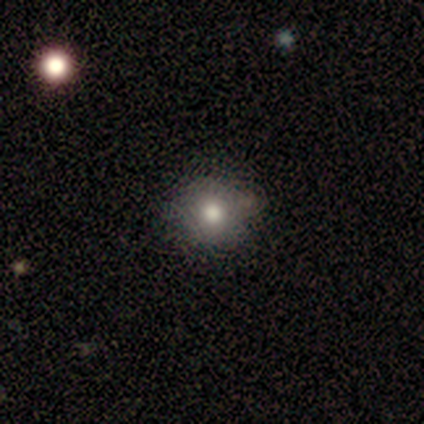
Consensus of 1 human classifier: Smooth or featured? smooth (100%)
How rounded? round (100%)
Merging? none (100%)